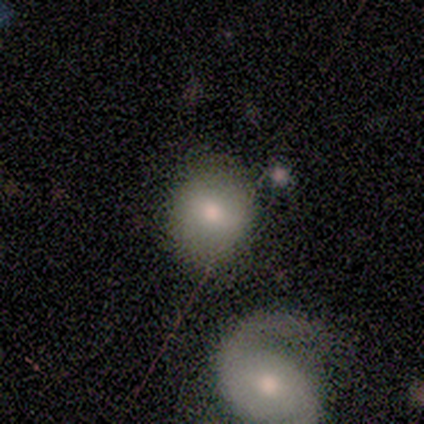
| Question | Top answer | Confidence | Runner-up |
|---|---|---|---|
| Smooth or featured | smooth | 75% | featured or disk (25%) |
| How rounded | round | 67% | in between (33%) |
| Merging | none | 62% | minor disturbance (25%) |